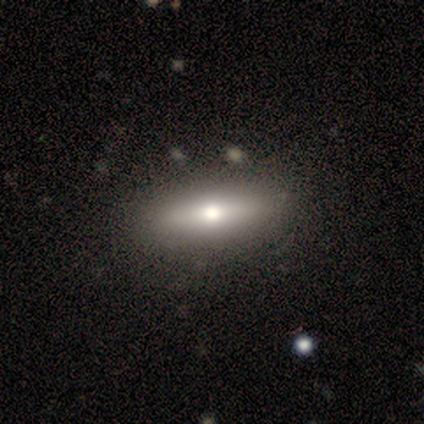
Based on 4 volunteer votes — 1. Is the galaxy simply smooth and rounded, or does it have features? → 75% smooth, 25% featured or disk, 0% star or artifact.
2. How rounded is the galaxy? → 67% in between, 33% cigar-shaped, 0% round.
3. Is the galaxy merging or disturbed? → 100% none, 0% minor disturbance, 0% major disturbance, 0% merger.